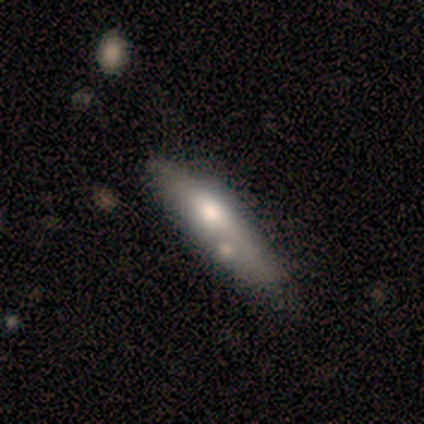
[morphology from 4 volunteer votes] Overall: smooth (100%). How rounded: in between (50%, tied with cigar-shaped). Merging: none (75%).